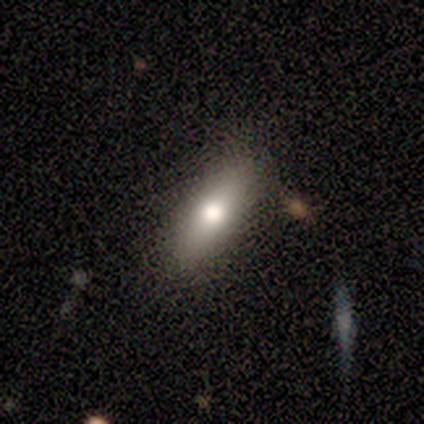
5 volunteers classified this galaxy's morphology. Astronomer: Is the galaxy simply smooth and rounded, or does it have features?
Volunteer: smooth — 60%.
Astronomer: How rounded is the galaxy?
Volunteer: in between — 67%.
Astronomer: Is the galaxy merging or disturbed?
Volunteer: none — 75%.